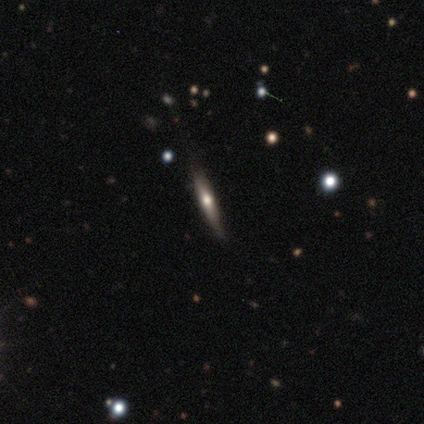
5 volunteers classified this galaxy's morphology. This appears to be a featured or disk galaxy (60%) viewed edge-on (100%) with a rounded central bulge (100%). Merging: none (80%).